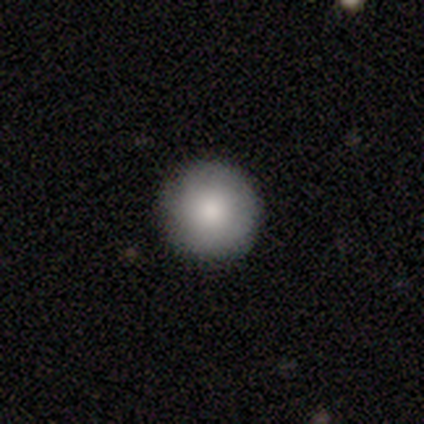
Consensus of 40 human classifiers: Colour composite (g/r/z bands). It shows a smooth galaxy with no disk features (75%) that is round (100%). Merging: none (86%).